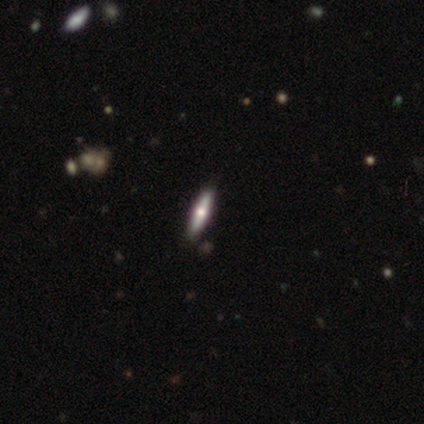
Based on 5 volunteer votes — Q: Smooth or featured?
A: featured or disk (60%); runner-up: smooth (40%)
Q: Edge-on disk?
A: yes (100%)
Q: Edge-on bulge?
A: rounded (100%)
Q: Merging?
A: none (100%)